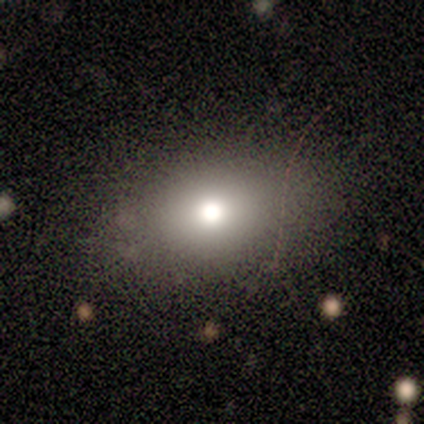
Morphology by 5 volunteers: A smooth galaxy with no disk features (80%) that is in between round and cigar-shaped (75%).

Vote fractions:
- Smooth or featured? smooth: 80% / featured or disk: 20% / star or artifact: 0%
- How rounded? in between: 75% / round: 25% / cigar-shaped: 0%
- Merging? none: 60% / minor disturbance: 20% / major disturbance: 20% / merger: 0%